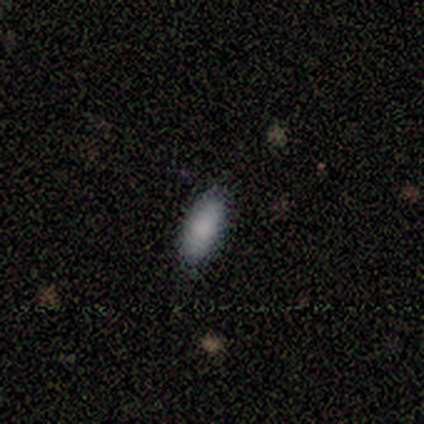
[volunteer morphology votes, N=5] type=smooth (100%); roundness=in between (100%); merging=none (60%).